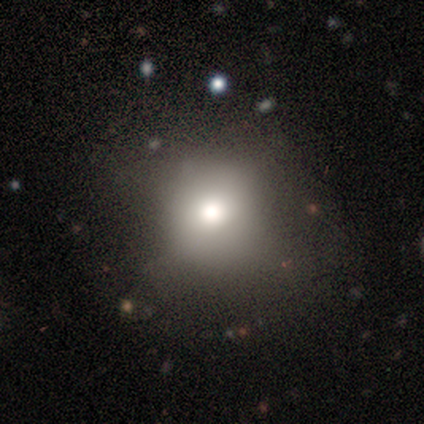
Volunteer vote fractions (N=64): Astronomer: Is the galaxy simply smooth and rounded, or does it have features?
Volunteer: smooth — 66%.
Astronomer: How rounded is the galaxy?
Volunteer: round — 69%.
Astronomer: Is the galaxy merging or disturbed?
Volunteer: none — 50%.